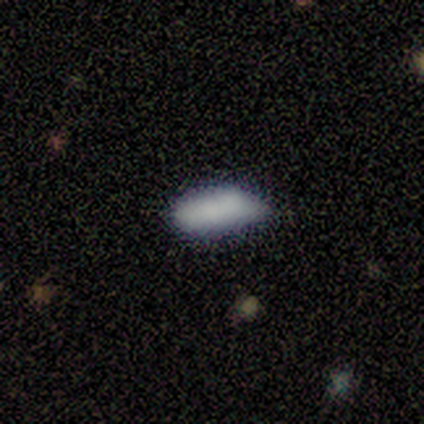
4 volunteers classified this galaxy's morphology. Smooth or featured? smooth (75%)
How rounded? in between (67%)
Merging? none (67%)